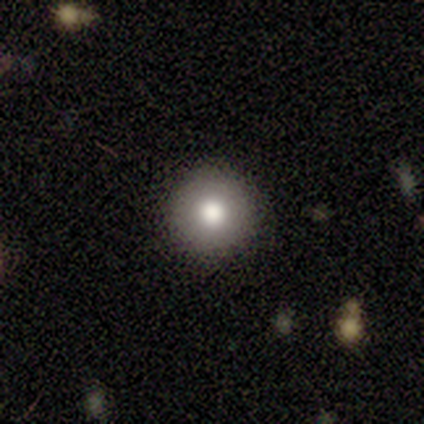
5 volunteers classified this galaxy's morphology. Smooth or featured? smooth (80%)
How rounded? round (100%)
Merging? none (100%)